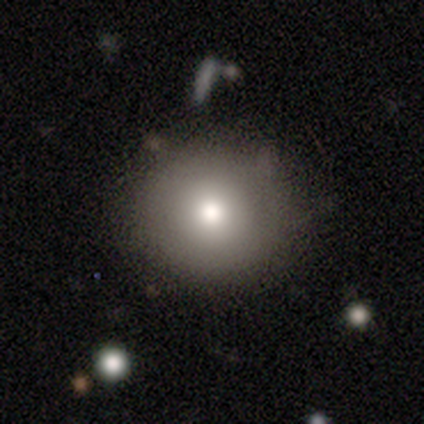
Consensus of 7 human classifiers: Overall: smooth (86%). How rounded: round (100%). Merging: none (71%).